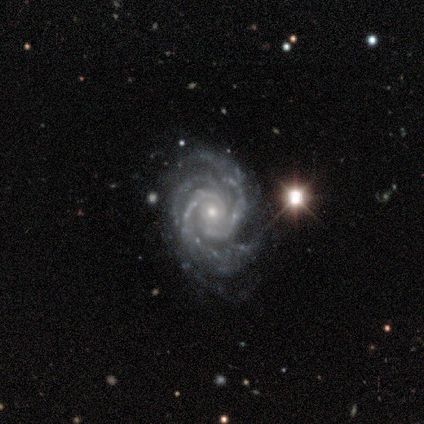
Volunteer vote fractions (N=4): Smooth or featured?
  - featured or disk: 100% *
  - smooth: 0%
  - star or artifact: 0%
Edge-on disk?
  - no: 100% *
  - yes: 0%
Bar?
  - no: 75% *
  - weak: 25%
  - strong: 0%
Spiral arms?
  - yes: 100% *
  - no: 0%
Spiral winding?
  - tight: 100% *
  - medium: 0%
  - loose: 0%
Spiral arm count?
  - 2: 50% *
  - 3: 25%
  - 4: 25%
  - 1: 0%
  - more than 4: 0%
  - can't tell: 0%
Bulge size?
  - moderate: 50% * (tied)
  - small: 50% * (tied)
  - dominant: 0%
  - large: 0%
  - none: 0%
Merging?
  - none: 100% *
  - minor disturbance: 0%
  - major disturbance: 0%
  - merger: 0%